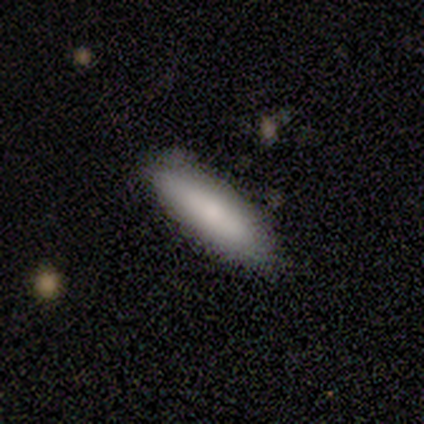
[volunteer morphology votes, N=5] smooth_or_featured: smooth (p=0.80) [alt: featured or disk p=0.20]
how_rounded: in between (p=0.50) [tied with: cigar-shaped p=0.50]
merging: none (p=1.00)